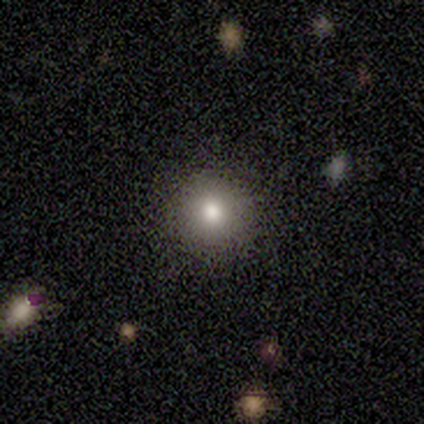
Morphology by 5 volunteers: Smooth or featured: smooth — 60% (star or artifact — 40%)
How rounded: round — 100%
Merging: none — 100%